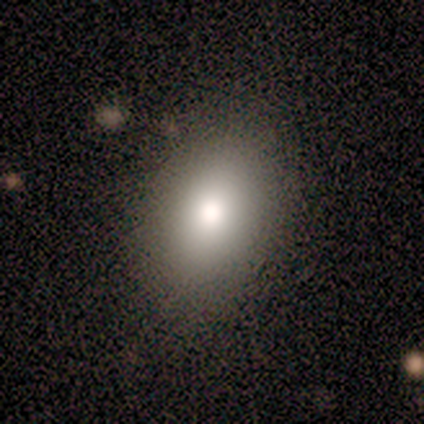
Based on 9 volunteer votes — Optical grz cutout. It shows a smooth galaxy with no disk features (78%) that is in between round and cigar-shaped (100%). Merging: none (100%).